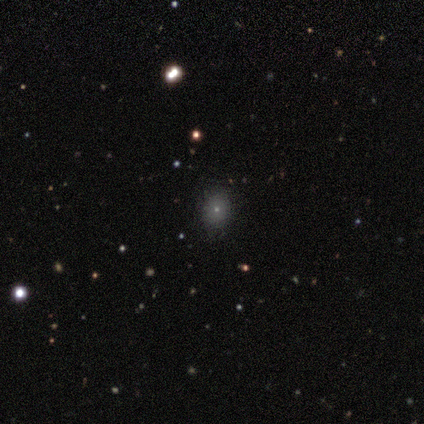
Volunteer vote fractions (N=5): Overall: smooth (80%). How rounded: round (75%). Merging: none (50%, tied with minor disturbance).